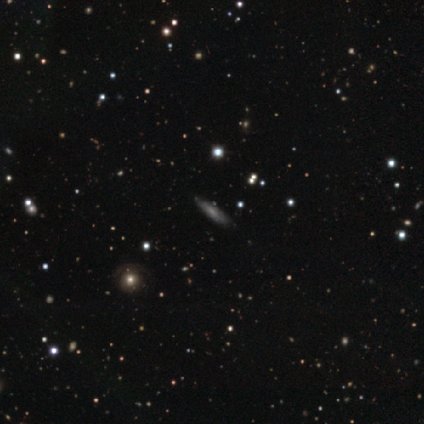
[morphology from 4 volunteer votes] smooth_or_featured: smooth (p=0.50) [tied with: featured or disk p=0.50]
how_rounded: in between (p=0.50) [tied with: cigar-shaped p=0.50]
merging: none (p=0.75) [alt: minor disturbance p=0.25]